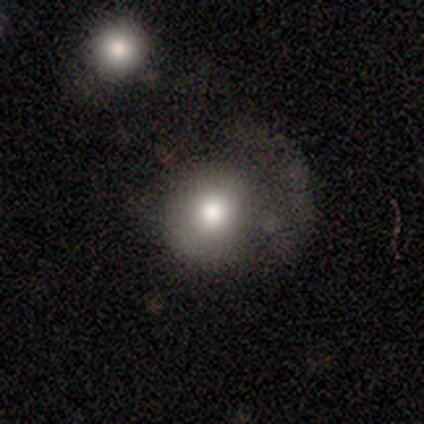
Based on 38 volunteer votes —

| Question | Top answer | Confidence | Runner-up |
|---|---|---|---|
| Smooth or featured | smooth | 74% | featured or disk (24%) |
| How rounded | round | 82% | in between (18%) |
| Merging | none | 41% | tied: major disturbance (41%) |